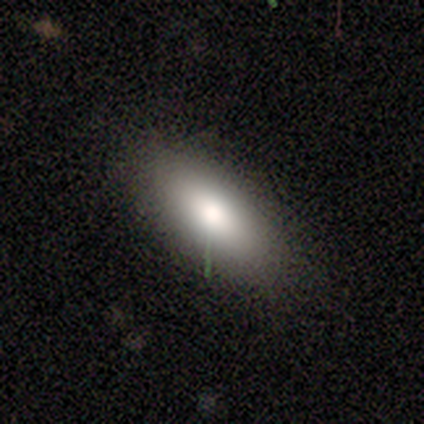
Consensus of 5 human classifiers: Morphology: type=smooth (100%); roundness=in between (80%); merging=none (80%).